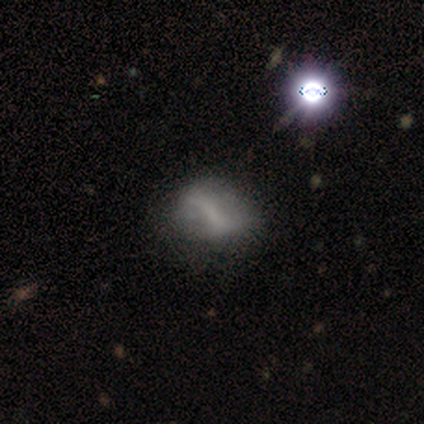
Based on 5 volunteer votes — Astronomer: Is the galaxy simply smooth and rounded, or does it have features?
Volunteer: smooth — 80%.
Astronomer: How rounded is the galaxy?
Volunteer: in between — 75%.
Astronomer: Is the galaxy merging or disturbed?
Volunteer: minor disturbance — 80%.